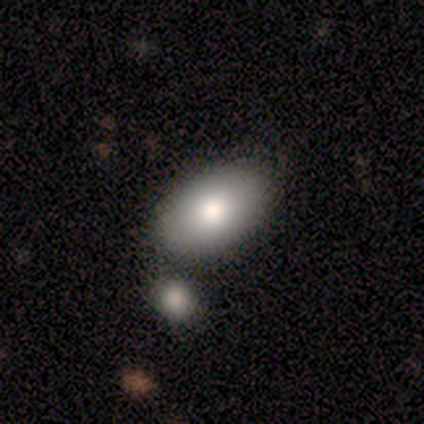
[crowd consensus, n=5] smooth_or_featured: smooth (p=1.00)
how_rounded: in between (p=1.00)
merging: none (p=1.00)